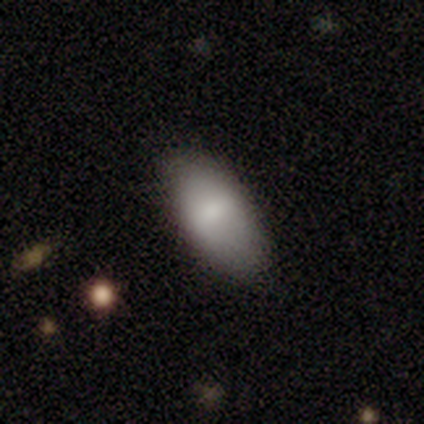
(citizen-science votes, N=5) This appears to be a smooth galaxy with no disk features (100%) that is in between round and cigar-shaped (100%). Merging: none (80%).